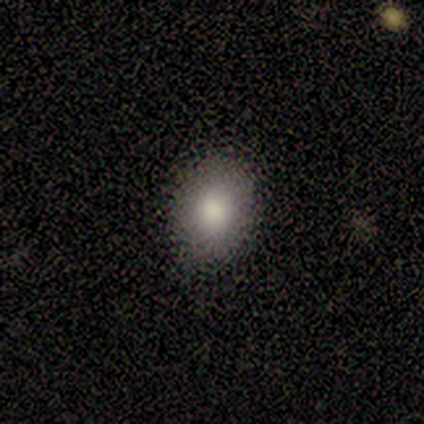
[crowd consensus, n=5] smooth 80%, star or artifact 20%, featured or disk 0%. Down the decision tree: how rounded — round (75%); merging — none (100%).